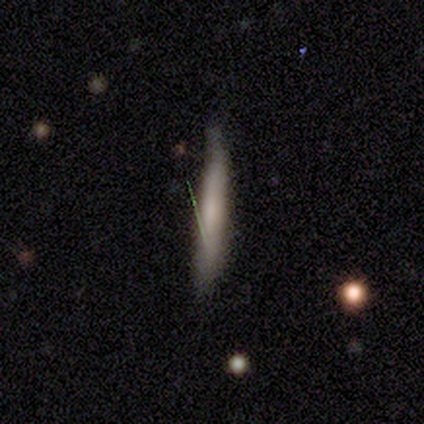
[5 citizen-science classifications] smooth-or-featured: smooth: 100% | featured or disk: 0% | star or artifact: 0%
  how-rounded: cigar-shaped: 100% | round: 0% | in between: 0%
  merging: none: 60% | minor disturbance: 40% | major disturbance: 0% | merger: 0%